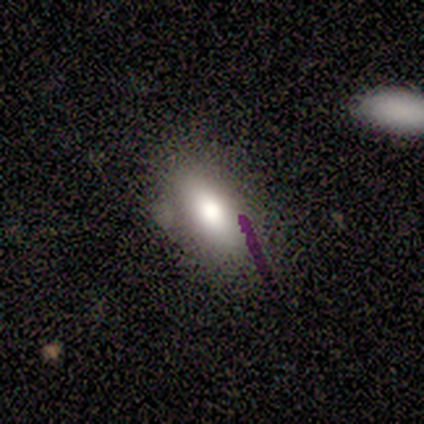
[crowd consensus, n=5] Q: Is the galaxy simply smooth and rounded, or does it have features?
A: smooth — 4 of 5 (80%).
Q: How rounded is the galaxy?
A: in between — 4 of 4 (100%).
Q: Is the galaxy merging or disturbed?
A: none — 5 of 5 (100%).